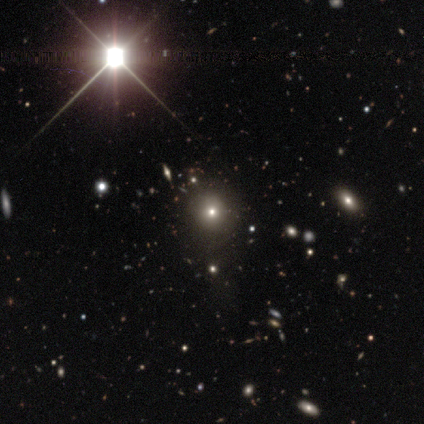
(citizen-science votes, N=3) Q: Smooth or featured?
A: smooth (33%); tied with: featured or disk (33%); star or artifact (33%)
Q: How rounded?
A: round (100%)
Q: Merging?
A: none (100%)